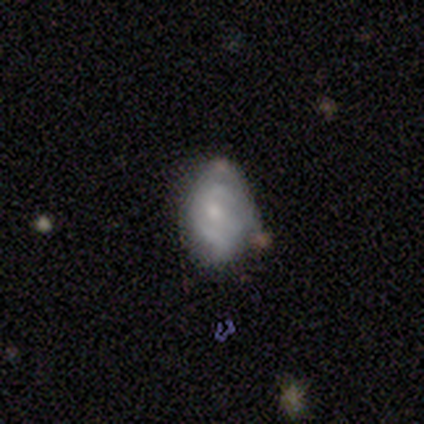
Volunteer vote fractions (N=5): This appears to be a featured or disk galaxy (40%, tied with star or artifact) with no bar (100%), 2 (100%) tight (50%, tied with loose) spiral arms (100%) and a small central bulge (100%). Merging: none (33%, tied with minor disturbance and major disturbance).